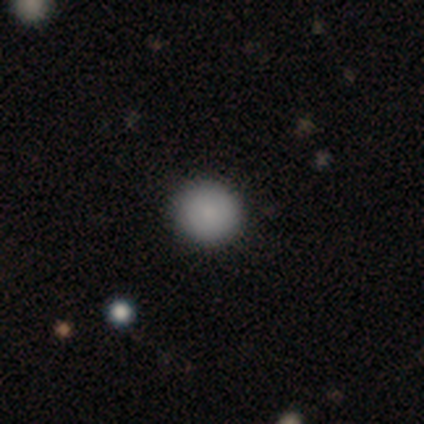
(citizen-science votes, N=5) Smooth or featured: smooth — 100%
How rounded: round — 100%
Merging: none — 100%